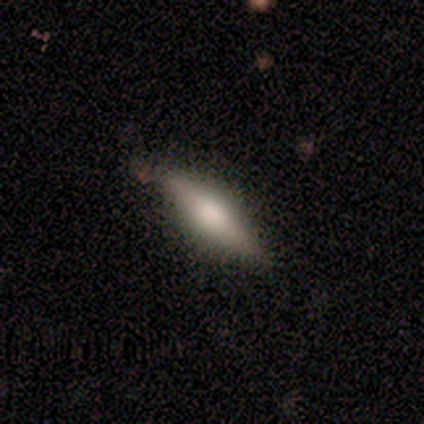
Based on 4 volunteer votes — Q: Smooth or featured?
A: smooth (50%); runner-up: featured or disk (25%)
Q: How rounded?
A: in between (50%); tied with: cigar-shaped (50%)
Q: Merging?
A: none (100%)